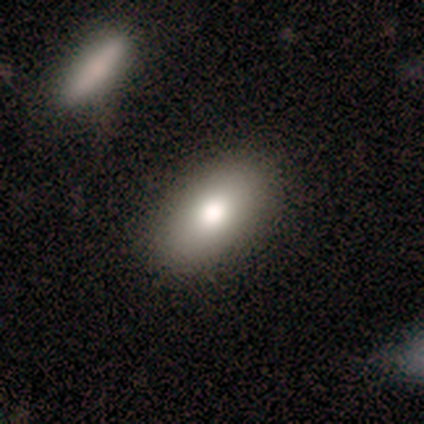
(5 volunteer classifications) smooth-or-featured: smooth: 100% | featured or disk: 0% | star or artifact: 0%
  how-rounded: in between: 60% | round: 20% | cigar-shaped: 20%
  merging: none: 60% | minor disturbance: 20% | merger: 20% | major disturbance: 0%